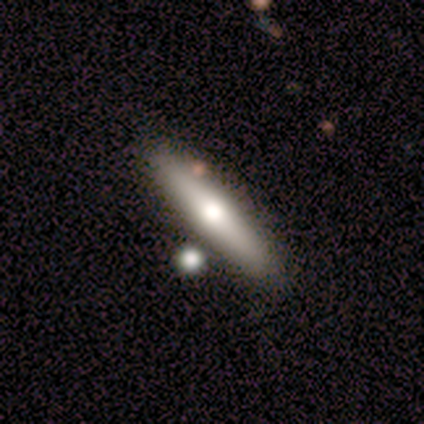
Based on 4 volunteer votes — Morphology: type=smooth (50%, tied with featured or disk); roundness=cigar-shaped (100%); merging=none (100%).